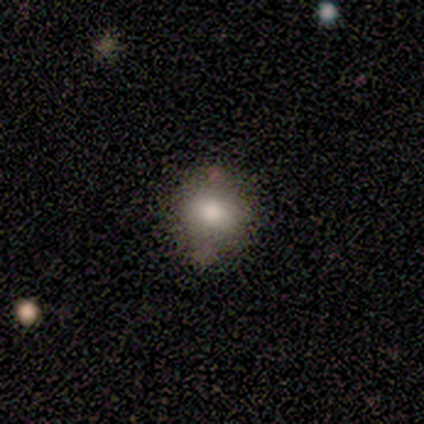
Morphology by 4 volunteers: Smooth or featured?
  - smooth: 50% * (tied)
  - featured or disk: 50% * (tied)
  - star or artifact: 0%
How rounded?
  - in between: 100% *
  - round: 0%
  - cigar-shaped: 0%
Merging?
  - none: 75% *
  - major disturbance: 25%
  - minor disturbance: 0%
  - merger: 0%